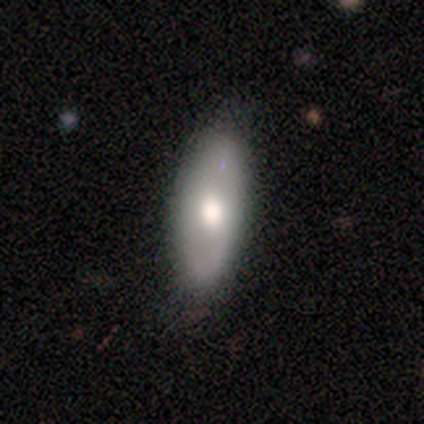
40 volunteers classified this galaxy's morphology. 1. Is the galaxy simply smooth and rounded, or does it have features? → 57% smooth, 35% featured or disk, 8% star or artifact.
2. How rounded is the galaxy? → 87% in between, 9% cigar-shaped, 4% round.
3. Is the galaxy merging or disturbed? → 78% none, 19% minor disturbance, 3% major disturbance, 0% merger.